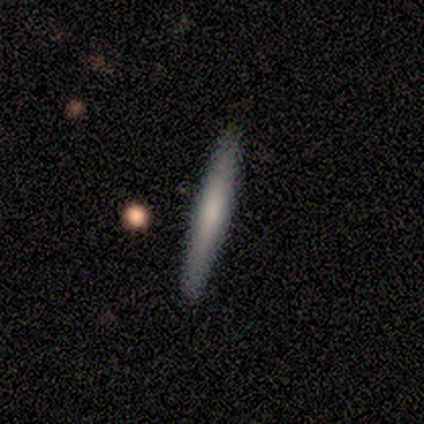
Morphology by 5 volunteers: Overall: smooth (60%; featured or disk 20%). How rounded: cigar-shaped (100%). Merging: none (100%).